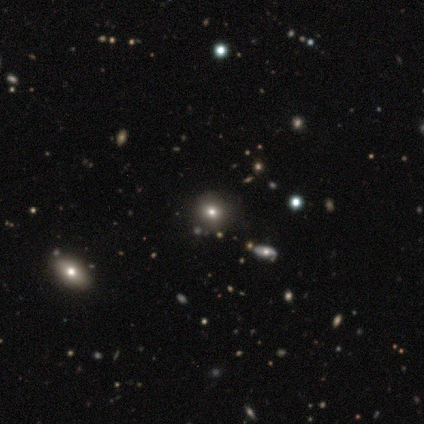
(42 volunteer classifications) smooth-or-featured: smooth: 55% | star or artifact: 29% | featured or disk: 17%
  how-rounded: round: 96% | in between: 4% | cigar-shaped: 0%
  merging: none: 83% | minor disturbance: 10% | merger: 7% | major disturbance: 0%